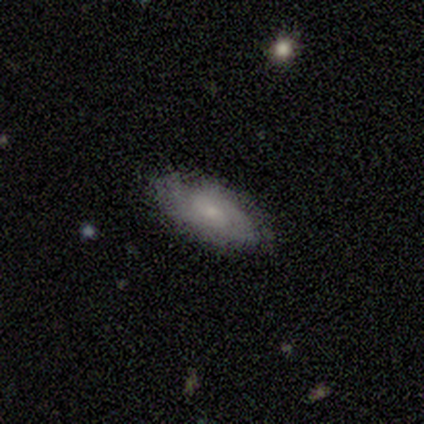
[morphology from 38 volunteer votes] Smooth or featured?
  - smooth: 58% *
  - featured or disk: 42%
  - star or artifact: 0%
How rounded?
  - in between: 86% *
  - cigar-shaped: 14%
  - round: 0%
Merging?
  - none: 87% *
  - minor disturbance: 13%
  - major disturbance: 0%
  - merger: 0%